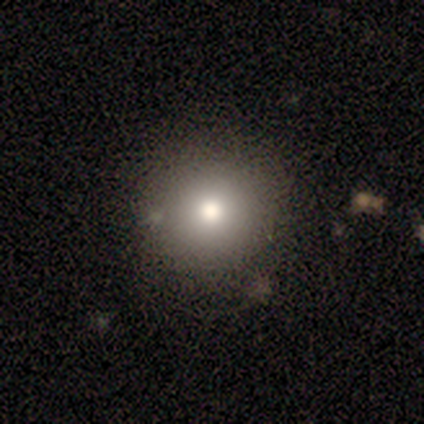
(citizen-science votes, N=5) Smooth or featured? smooth (100%)
How rounded? round (100%)
Merging? none (60%)